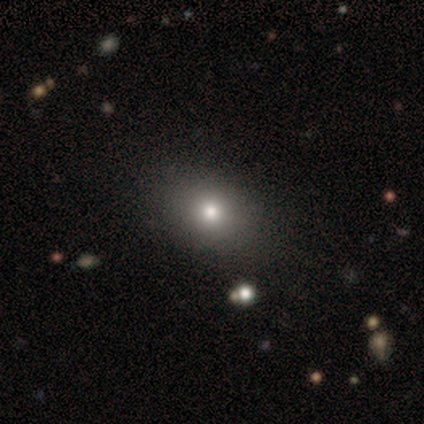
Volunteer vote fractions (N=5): This is marginally a smooth galaxy (40%, tied with star or artifact). How rounded: clearly in between (100%). Merging: marginally none (33%, tied with minor disturbance and major disturbance).